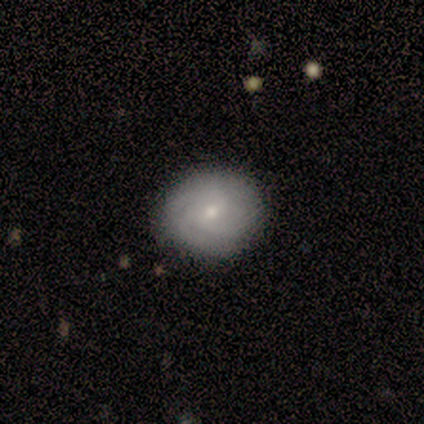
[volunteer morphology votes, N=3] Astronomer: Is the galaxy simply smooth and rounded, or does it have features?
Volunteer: smooth — 67%.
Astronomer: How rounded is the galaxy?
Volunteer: round — 50%, tied with in between at 50%.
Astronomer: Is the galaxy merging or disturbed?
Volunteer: none — 50%, tied with major disturbance at 50%.